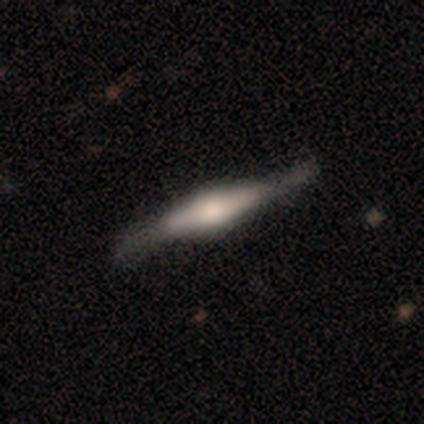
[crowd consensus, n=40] This appears to be a featured or disk galaxy (82%) viewed edge-on (94%) with a rounded central bulge (68%). Merging: none (60%).